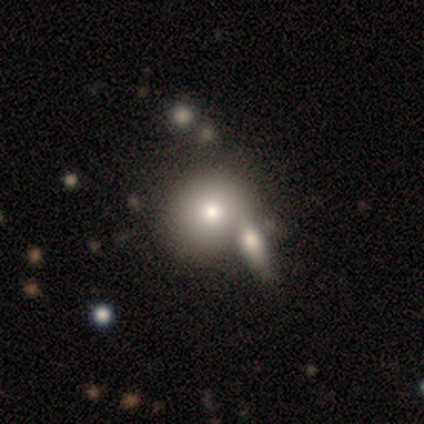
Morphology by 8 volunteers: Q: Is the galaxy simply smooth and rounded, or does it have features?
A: smooth — 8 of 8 (100%).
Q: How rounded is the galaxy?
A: round — 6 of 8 (75%).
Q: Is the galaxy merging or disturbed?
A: none — 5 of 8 (62%).